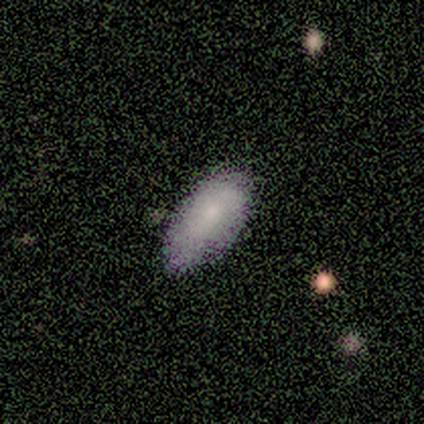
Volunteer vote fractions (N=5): This appears to be a smooth galaxy with no disk features (100%) that is in between round and cigar-shaped (100%). Merging: none (60%).